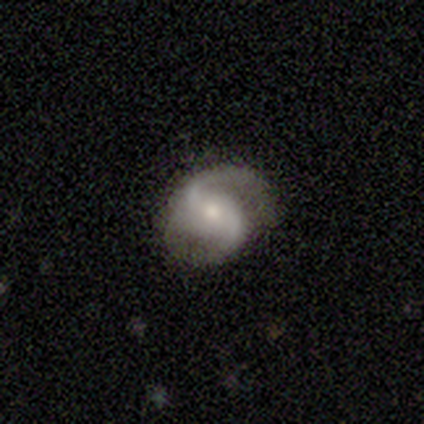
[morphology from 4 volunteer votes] A featured or disk galaxy (75%) with a weak bar (67%), 2 (100%) medium (67%) spiral arms (100%) and a moderate central bulge (100%). Merging: none (75%).